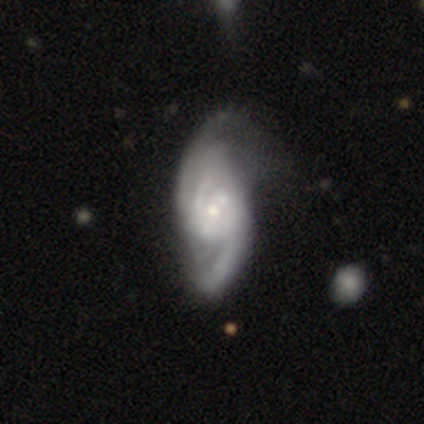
smooth_or_featured: featured or disk (p=0.97) [alt: smooth p=0.03]
disk_edge_on: no (p=1.00)
bar: no (p=0.71) [alt: weak p=0.24]
has_spiral_arms: yes (p=0.95) [alt: no p=0.05]
spiral_winding: tight (p=0.39) [alt: loose p=0.33]
spiral_arm_count: 2 (p=0.69) [alt: 3 p=0.19]
bulge_size: small (p=0.53) [alt: moderate p=0.37]
merging: none (p=0.26) [alt: minor disturbance p=0.21]